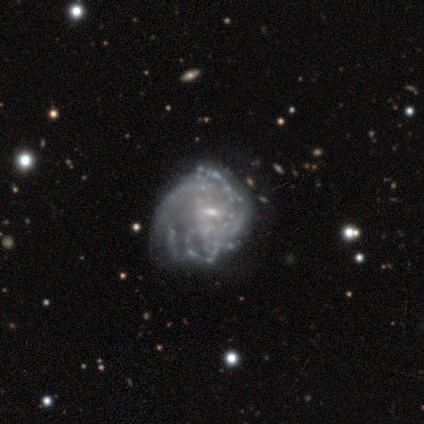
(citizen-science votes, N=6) A featured or disk galaxy (100%) with no bar (67%), tight (50%, tied with medium) spiral arms (67%) and a small central bulge (100%). Merging: minor disturbance (50%).